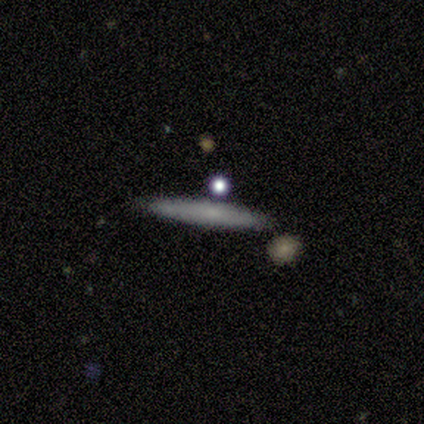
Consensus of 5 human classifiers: smooth_or_featured: smooth (p=1.00)
how_rounded: cigar-shaped (p=1.00)
merging: none (p=1.00)